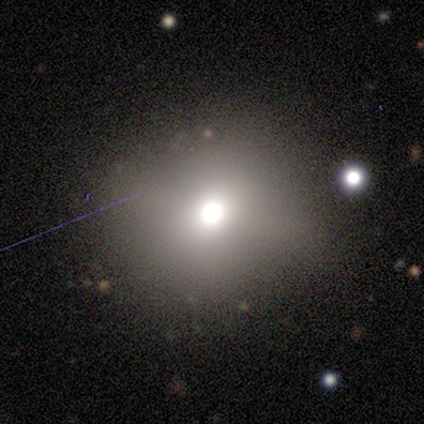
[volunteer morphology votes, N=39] type=smooth (72%); roundness=round (89%); merging=none (75%).